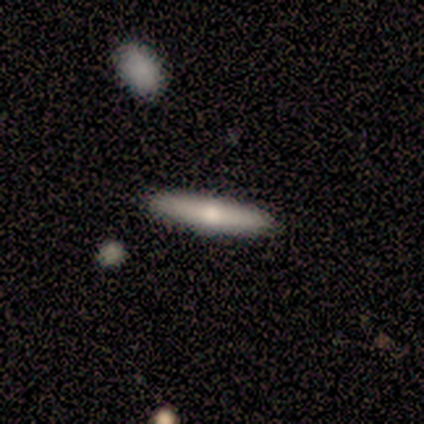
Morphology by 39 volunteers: Volunteers were most divided on "smooth or featured": smooth: 54%, featured or disk: 46%, star or artifact: 0%. More confident: how rounded — cigar-shaped (100%); merging — none (85%).